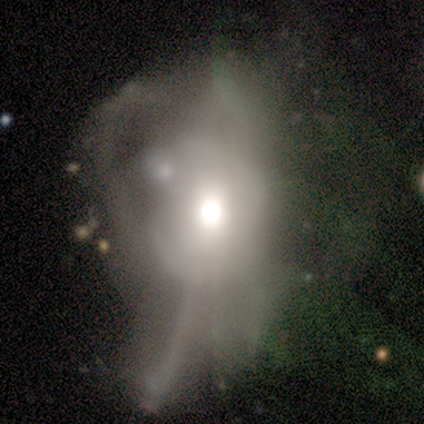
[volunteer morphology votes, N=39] Smooth or featured?
  - featured or disk: 59% *
  - star or artifact: 23%
  - smooth: 18%
Edge-on disk?
  - no: 96% *
  - yes: 4%
Bar?
  - no: 95% *
  - strong: 5%
  - weak: 0%
Spiral arms?
  - no: 86% *
  - yes: 14%
Bulge size?
  - moderate: 59% *
  - large: 32%
  - dominant: 5%
  - small: 5%
  - none: 0%
Merging?
  - major disturbance: 53% *
  - merger: 17%
  - none: 3%
  - minor disturbance: 3%